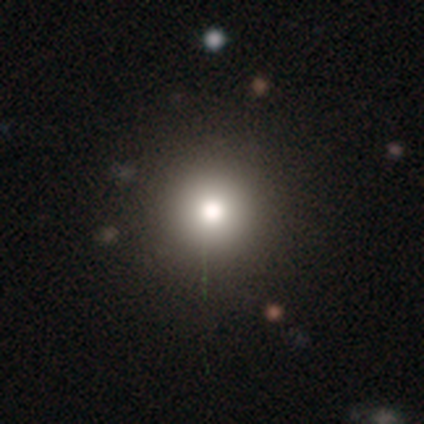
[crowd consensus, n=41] Morphology: type=smooth (88%); roundness=round (92%); merging=none (90%).